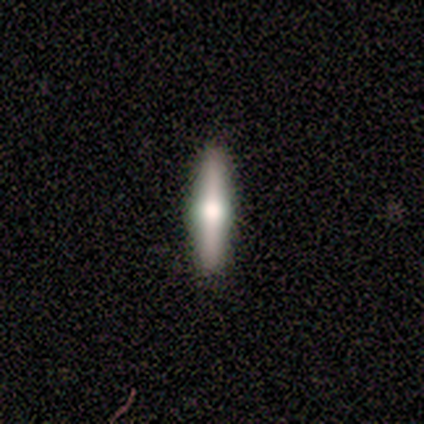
This appears to be a featured or disk galaxy (67%) viewed edge-on (100%) with a rounded central bulge (100%). Merging: none (100%).